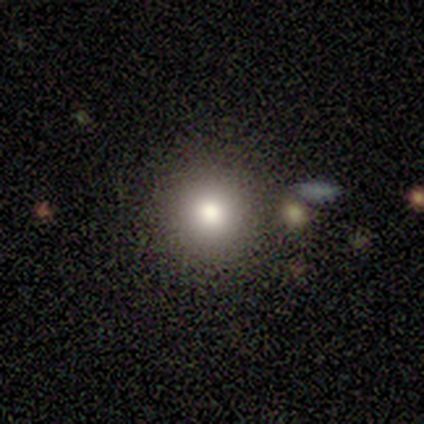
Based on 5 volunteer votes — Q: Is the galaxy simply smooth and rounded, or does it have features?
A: smooth — 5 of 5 (100%).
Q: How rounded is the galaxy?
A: round — 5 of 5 (100%).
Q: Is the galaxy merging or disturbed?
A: none — 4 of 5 (80%).